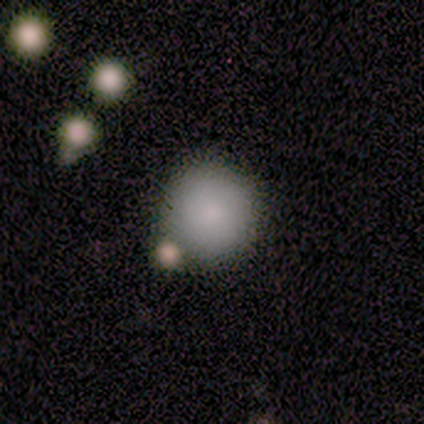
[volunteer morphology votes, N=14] Smooth or featured: smooth — 93% (star or artifact — 7%)
How rounded: round — 92% (in between — 8%)
Merging: none — 54% (minor disturbance — 31%)